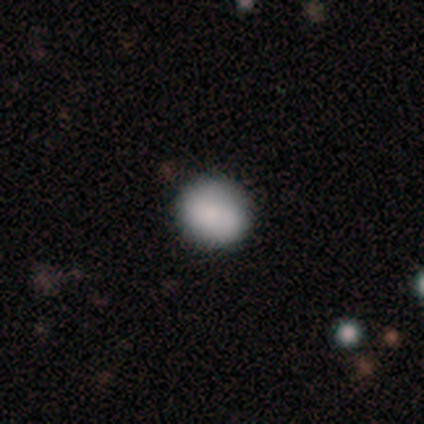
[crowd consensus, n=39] A smooth galaxy with no disk features (92%) that is round (89%). Merging: none (84%).